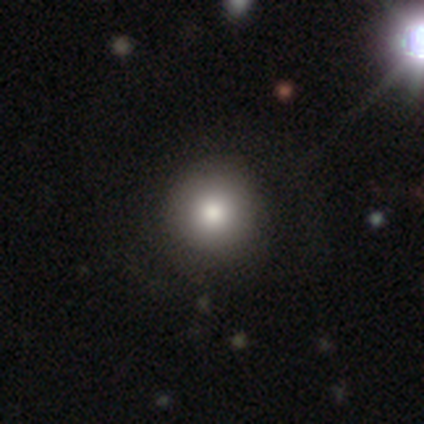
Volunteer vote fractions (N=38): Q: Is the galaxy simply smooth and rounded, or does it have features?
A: smooth — 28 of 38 (74%).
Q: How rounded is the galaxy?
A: round — 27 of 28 (96%).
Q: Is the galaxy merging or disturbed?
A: none — 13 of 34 (38%).